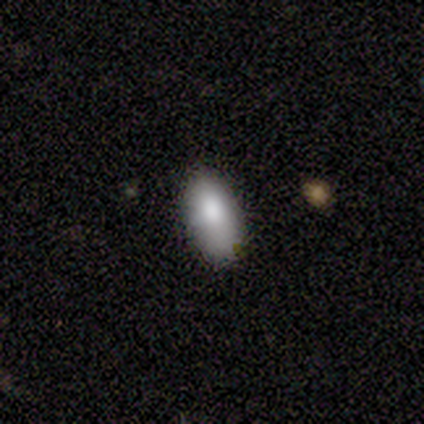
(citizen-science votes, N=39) Smooth or featured? smooth (87%)
How rounded? in between (88%)
Merging? none (32%, tied with minor disturbance)